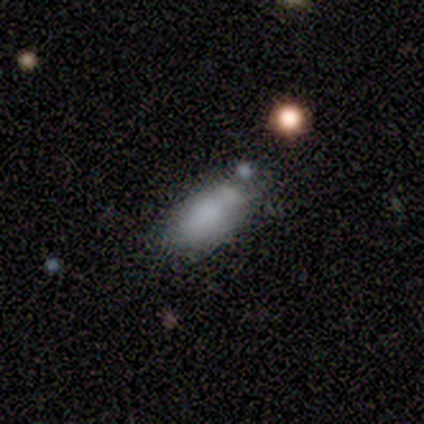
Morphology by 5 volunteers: Smooth or featured?
  - smooth: 60% *
  - featured or disk: 20%
  - star or artifact: 20%
How rounded?
  - in between: 100% *
  - round: 0%
  - cigar-shaped: 0%
Merging?
  - none: 75% *
  - major disturbance: 25%
  - minor disturbance: 0%
  - merger: 0%